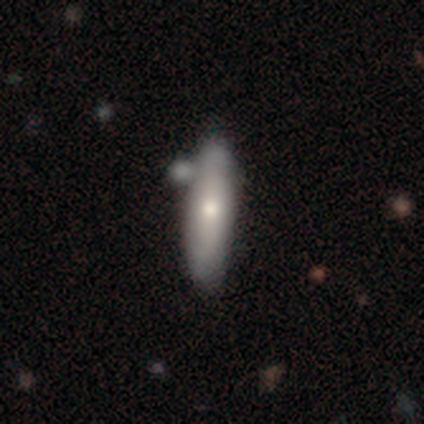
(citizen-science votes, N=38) Volunteers were most divided on "how rounded": cigar-shaped: 52%, in between: 48%, round: 0%. More confident: merging — none (61%); smooth or featured — smooth (55%).